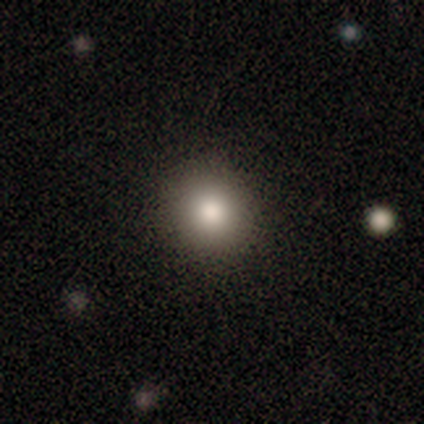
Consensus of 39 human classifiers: This appears to be a smooth galaxy with no disk features (82%) that is round (88%). Merging: none (97%).